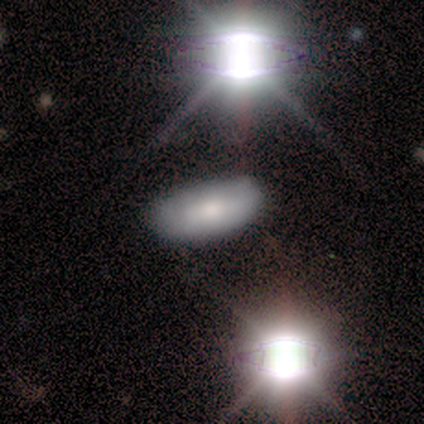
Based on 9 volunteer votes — This is marginally a smooth galaxy (44%). How rounded: likely in between (75%). Merging: likely none (67%).